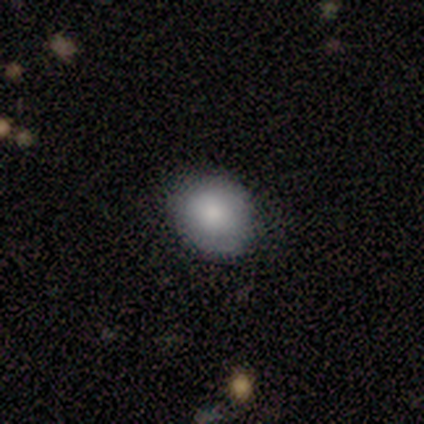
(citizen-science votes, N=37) A smooth galaxy with no disk features (78%) that is round (76%).

Vote fractions:
- Smooth or featured? smooth: 78% / featured or disk: 11% / star or artifact: 11%
- How rounded? round: 76% / in between: 24% / cigar-shaped: 0%
- Merging? none: 85% / minor disturbance: 6% / major disturbance: 6% / merger: 3%